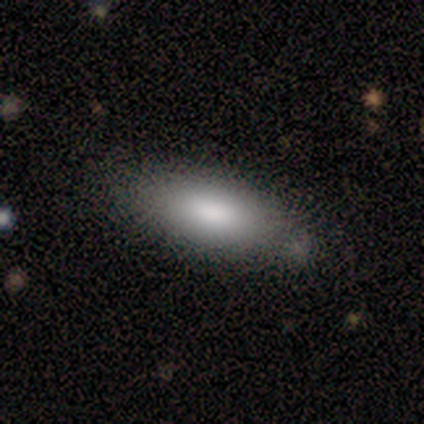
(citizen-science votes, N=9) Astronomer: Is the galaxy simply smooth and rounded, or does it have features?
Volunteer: smooth — 100%.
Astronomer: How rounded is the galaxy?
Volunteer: in between — 89%.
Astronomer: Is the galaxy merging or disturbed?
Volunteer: minor disturbance — 56% (runner-up: none, 44%).